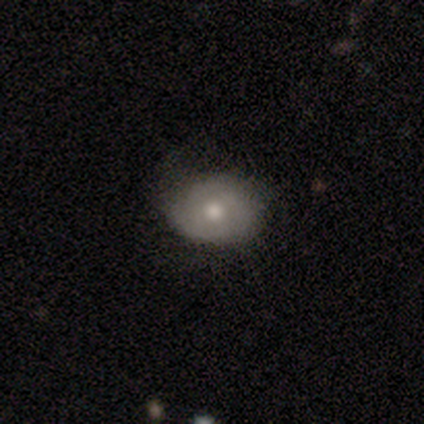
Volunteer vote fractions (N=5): A smooth galaxy with no disk features (100%) that is in between round and cigar-shaped (60%).

Vote fractions:
- Smooth or featured? smooth: 100% / featured or disk: 0% / star or artifact: 0%
- How rounded? in between: 60% / round: 40% / cigar-shaped: 0%
- Merging? none: 60% / minor disturbance: 40% / major disturbance: 0% / merger: 0%